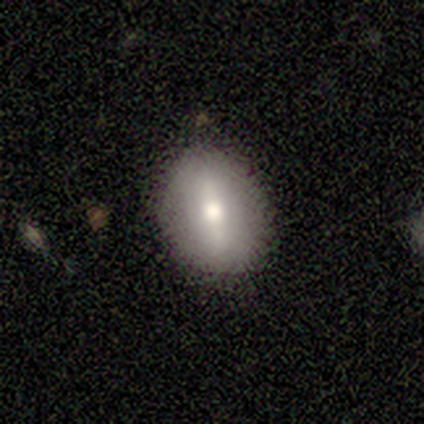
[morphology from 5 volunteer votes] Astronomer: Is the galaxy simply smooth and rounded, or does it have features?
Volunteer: featured or disk — 60% (runner-up: smooth, 40%).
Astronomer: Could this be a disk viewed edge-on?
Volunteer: no — 100%.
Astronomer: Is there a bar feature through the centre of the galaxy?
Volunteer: strong — 67%.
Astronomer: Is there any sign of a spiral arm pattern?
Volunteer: no — 100%.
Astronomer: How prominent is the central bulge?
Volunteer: moderate — 67%.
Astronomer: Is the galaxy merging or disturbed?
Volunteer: none — 100%.